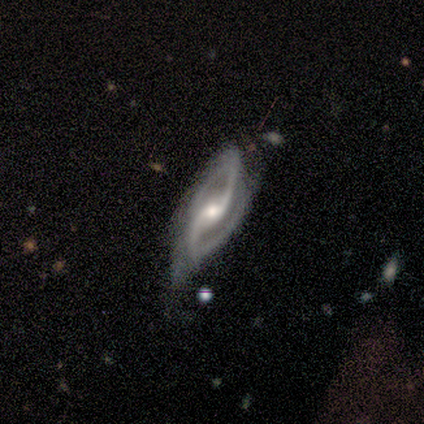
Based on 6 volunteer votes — A featured or disk galaxy (100%) with no bar (83%), 2 (100%) medium (67%) spiral arms (100%) and a moderate central bulge (50%, tied with small).

Vote fractions:
- Smooth or featured? featured or disk: 100% / smooth: 0% / star or artifact: 0%
- Edge-on disk? no: 100% / yes: 0%
- Bar? no: 83% / weak: 17% / strong: 0%
- Spiral arms? yes: 100% / no: 0%
- Spiral winding? medium: 67% / tight: 17% / loose: 17%
- Spiral arm count? 2: 100% / 1: 0% / 3: 0% / 4: 0% / more than 4: 0% / can't tell: 0%
- Bulge size? moderate: 50% (tied) / small: 50% (tied) / dominant: 0% / large: 0% / none: 0%
- Merging? none: 50% / minor disturbance: 33% / major disturbance: 17% / merger: 0%